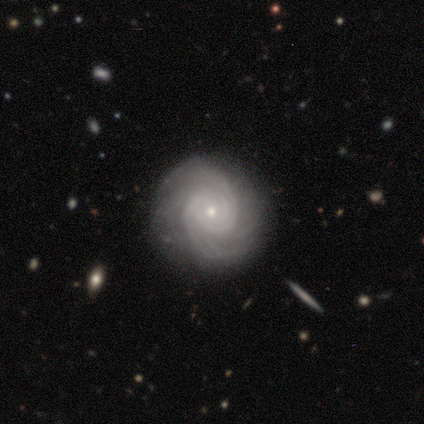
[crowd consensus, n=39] A featured or disk galaxy (79%) with no bar (70%), tight (87%) spiral arms (100%) and a small central bulge (87%).

Vote fractions:
- Smooth or featured? featured or disk: 79% / smooth: 13% / star or artifact: 8%
- Edge-on disk? no: 97% / yes: 3%
- Bar? no: 70% / weak: 23% / strong: 7%
- Spiral arms? yes: 100% / no: 0%
- Spiral winding? tight: 87% / medium: 10% / loose: 3%
- Spiral arm count? can't tell: 43% / 2: 17% / 3: 13% / 4: 13% / more than 4: 13% / 1: 0%
- Bulge size? small: 87% / moderate: 10% / dominant: 3% / large: 0% / none: 0%
- Merging? none: 83% / minor disturbance: 11% / major disturbance: 3% / merger: 3%